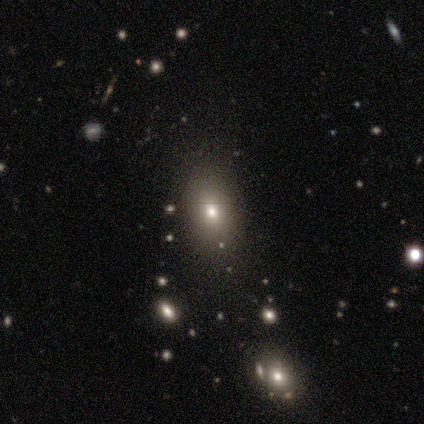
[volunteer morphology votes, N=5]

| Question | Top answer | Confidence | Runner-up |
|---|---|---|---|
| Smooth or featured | smooth | 60% | star or artifact (40%) |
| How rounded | in between | 67% | round (33%) |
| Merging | none | 67% | major disturbance (33%) |